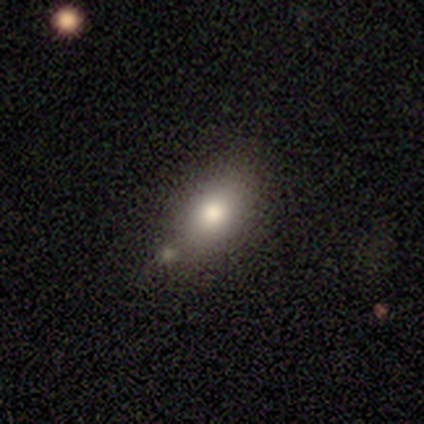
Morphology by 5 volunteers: smooth_or_featured: smooth (p=1.00)
how_rounded: in between (p=1.00)
merging: minor disturbance (p=0.60) [alt: none p=0.40]